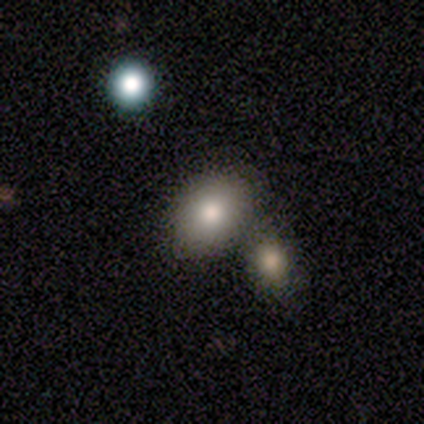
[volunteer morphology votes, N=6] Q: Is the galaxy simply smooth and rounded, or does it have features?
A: smooth — 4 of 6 (67%).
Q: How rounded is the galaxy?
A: in between — 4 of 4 (100%).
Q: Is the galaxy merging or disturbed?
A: merger — 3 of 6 (50%).